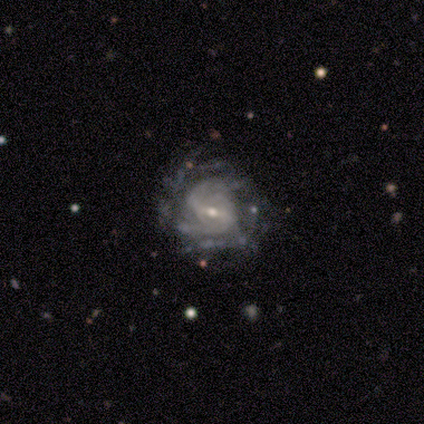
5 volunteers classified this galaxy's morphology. This appears to be a featured or disk galaxy (80%) with a strong bar (50%), 3 (33%, tied with 4 and can't tell) medium (67%) spiral arms (75%) and a small central bulge (50%). Merging: none (75%).